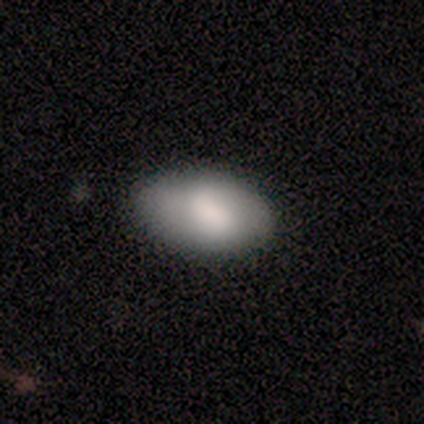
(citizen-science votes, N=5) Morphology: type=smooth (80%); roundness=in between (100%); merging=none (60%).